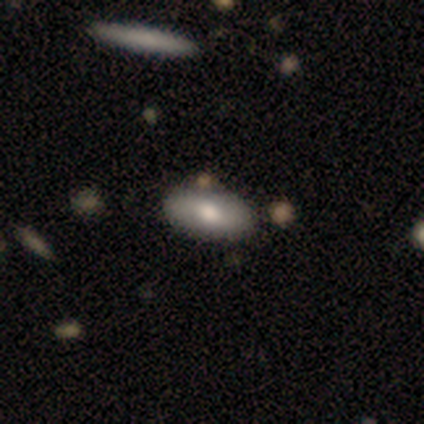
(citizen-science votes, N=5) Smooth or featured? smooth (80%)
How rounded? in between (75%)
Merging? none (80%)